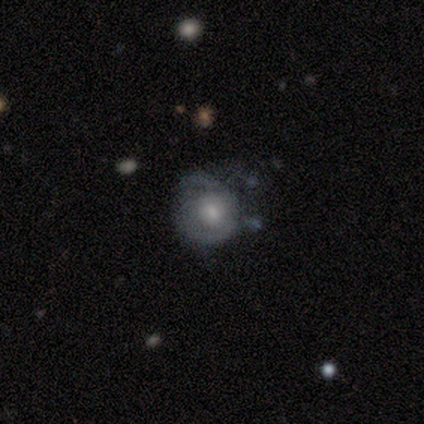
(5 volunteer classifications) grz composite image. It shows a featured or disk galaxy (80%) with no bar (100%), 1 (33%, tied with 2 and can't tell) loose (67%) spiral arms (75%) and a large central bulge (25%, tied with moderate, small and none). Merging: minor disturbance (100%).